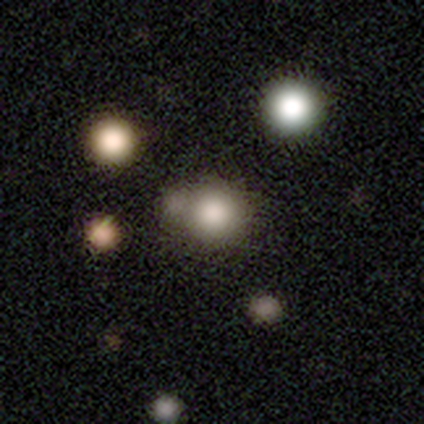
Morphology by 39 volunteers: Smooth or featured? 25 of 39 (64%) said smooth. How rounded? 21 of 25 (84%) said round. Merging? 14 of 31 (45%) said merger.